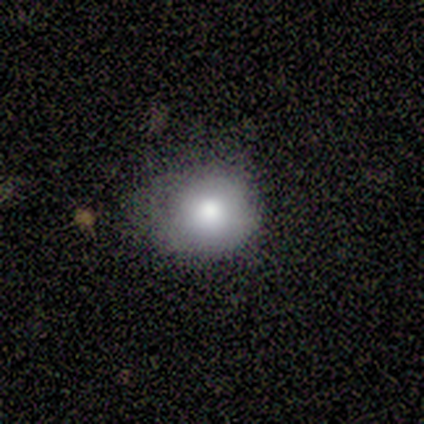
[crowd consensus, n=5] Smooth or featured? 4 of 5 (80%) said smooth. How rounded? 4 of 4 (100%) said round. Merging? 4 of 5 (80%) said none.